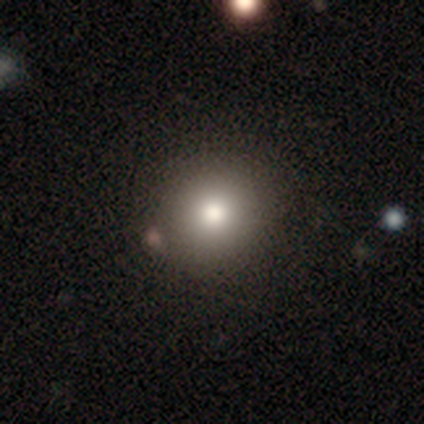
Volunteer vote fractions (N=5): smooth 100%, featured or disk 0%, star or artifact 0%. Down the decision tree: how rounded — round (100%); merging — none (80%).